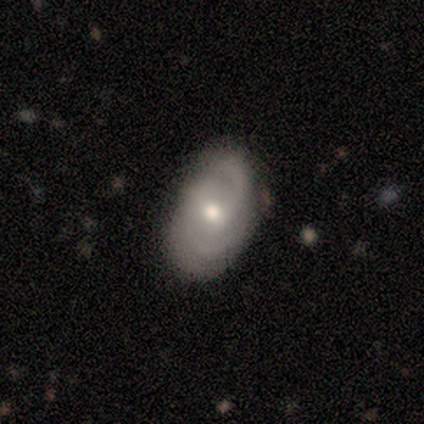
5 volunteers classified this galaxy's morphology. type=featured or disk (60%); edge-on=no (67%); bar=weak (50%, tied with no); spiral arms=yes (100%); winding=medium (50%, tied with loose); arm count=2 (100%); bulge=moderate (100%); merging=none (60%).